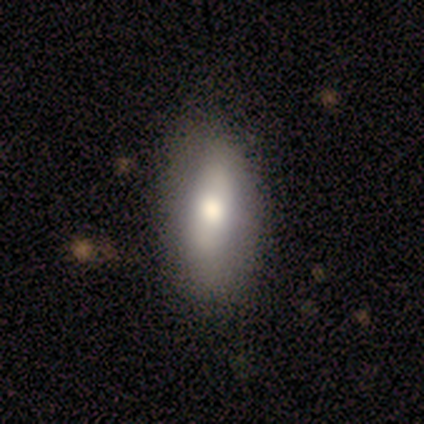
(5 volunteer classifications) Smooth or featured?
  - smooth: 60% *
  - featured or disk: 40%
  - star or artifact: 0%
How rounded?
  - in between: 100% *
  - round: 0%
  - cigar-shaped: 0%
Merging?
  - none: 100% *
  - minor disturbance: 0%
  - major disturbance: 0%
  - merger: 0%